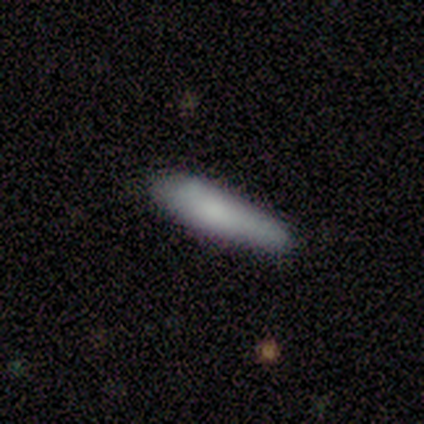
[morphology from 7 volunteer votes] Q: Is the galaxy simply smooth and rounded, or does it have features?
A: smooth — 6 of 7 (86%).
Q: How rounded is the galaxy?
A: cigar-shaped — 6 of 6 (100%).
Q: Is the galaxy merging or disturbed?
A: none — 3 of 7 (43%, tied with minor disturbance).